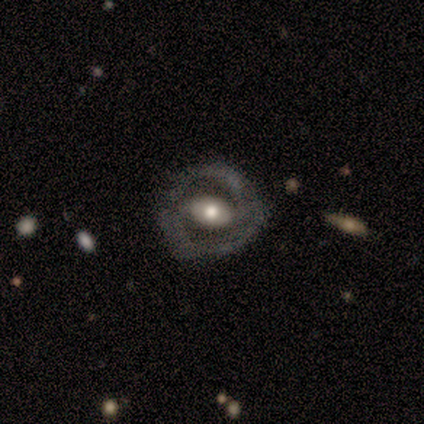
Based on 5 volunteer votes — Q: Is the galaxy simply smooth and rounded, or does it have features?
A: smooth — 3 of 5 (60%).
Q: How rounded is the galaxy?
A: in between — 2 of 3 (67%).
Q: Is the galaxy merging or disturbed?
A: none — 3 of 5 (60%).